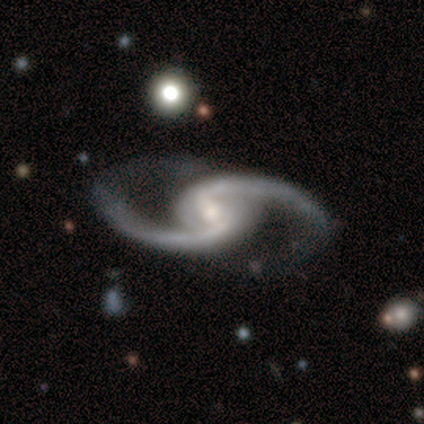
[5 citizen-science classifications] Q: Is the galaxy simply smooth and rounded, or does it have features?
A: featured or disk — 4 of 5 (80%).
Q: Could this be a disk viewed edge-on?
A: no — 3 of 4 (75%).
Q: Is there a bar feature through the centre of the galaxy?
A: weak — 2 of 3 (67%).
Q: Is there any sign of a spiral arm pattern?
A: yes — 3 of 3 (100%).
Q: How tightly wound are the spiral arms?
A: loose — 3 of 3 (100%).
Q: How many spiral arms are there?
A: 2 — 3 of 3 (100%).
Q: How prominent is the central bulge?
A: moderate — 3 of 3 (100%).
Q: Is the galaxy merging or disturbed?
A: none — 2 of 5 (40%, tied with major disturbance).